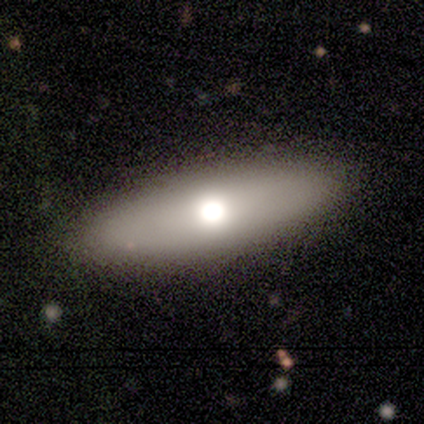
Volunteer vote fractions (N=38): Smooth or featured: smooth — 82% (featured or disk — 16%)
How rounded: cigar-shaped — 55% (in between — 39%)
Merging: none — 92% (minor disturbance — 8%)